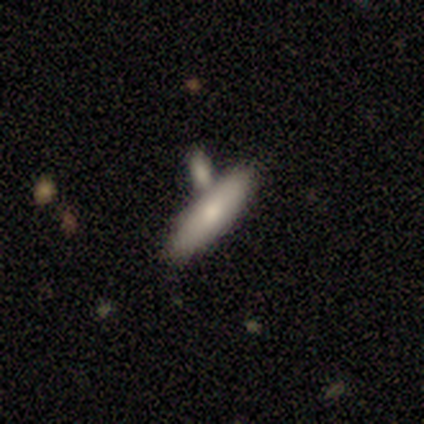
Overall: smooth (80%). How rounded: cigar-shaped (75%). Merging: none (60%; merger 40%).